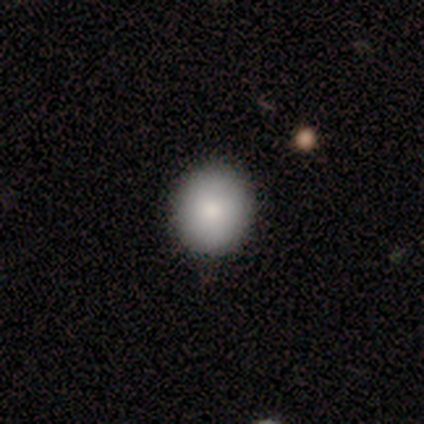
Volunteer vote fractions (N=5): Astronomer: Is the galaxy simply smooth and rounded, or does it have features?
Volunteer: smooth — 100%.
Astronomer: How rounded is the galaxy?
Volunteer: round — 60% (runner-up: in between, 40%).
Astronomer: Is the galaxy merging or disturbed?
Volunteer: none — 80%.